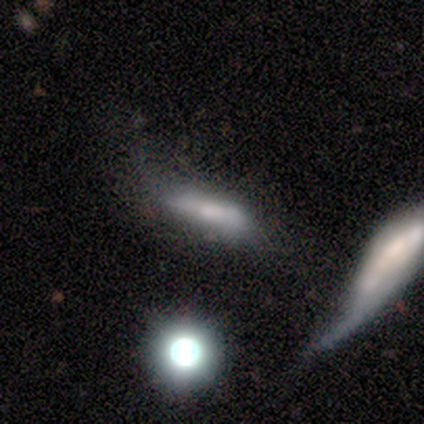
Morphology: type=smooth (80%); roundness=cigar-shaped (75%); merging=minor disturbance (60%).